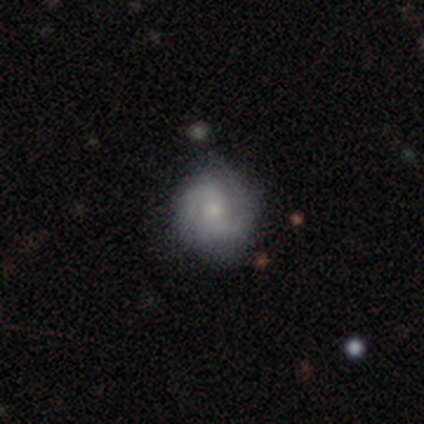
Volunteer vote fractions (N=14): A featured or disk galaxy (79%) with no bar (64%), 2 (64%) medium (55%) spiral arms (100%) and a small central bulge (55%). Merging: none (92%).